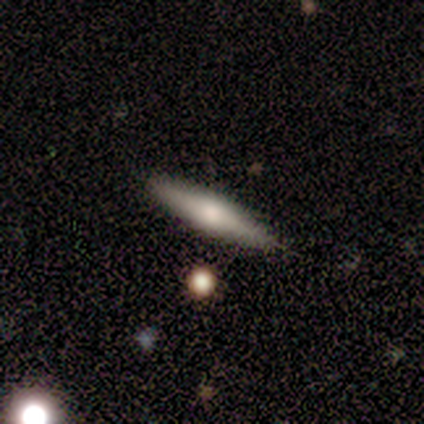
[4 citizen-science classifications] featured or disk 50%, smooth 25%, star or artifact 25%. Down the decision tree: edge-on disk — yes (50%, tied with no); edge-on bulge — rounded (100%); merging — none (100%).